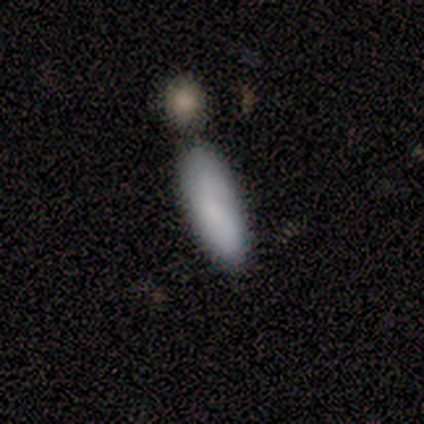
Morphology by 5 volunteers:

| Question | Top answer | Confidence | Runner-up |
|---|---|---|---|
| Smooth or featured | smooth | 100% | — |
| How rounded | in between | 80% | cigar-shaped (20%) |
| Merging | none | 100% | — |